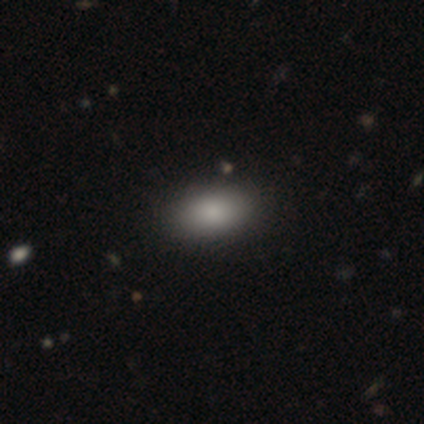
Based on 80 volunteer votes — smooth 86%, star or artifact 10%, featured or disk 4%. Down the decision tree: how rounded — in between (94%); merging — none (49%).